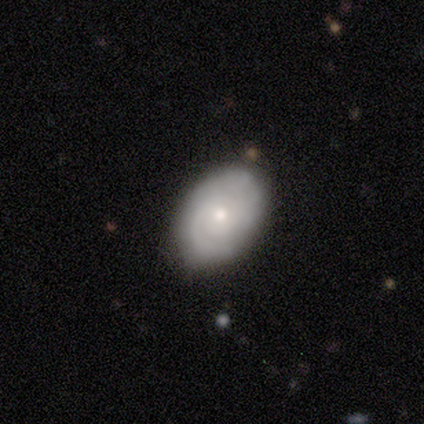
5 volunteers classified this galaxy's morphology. featured or disk 100%, smooth 0%, star or artifact 0%. Down the decision tree: edge-on disk — no (100%); bar — no (80%); spiral arms — yes (80%); spiral arm count — 2 (75%); spiral winding — tight (75%); bulge size — small (80%); merging — none (100%).